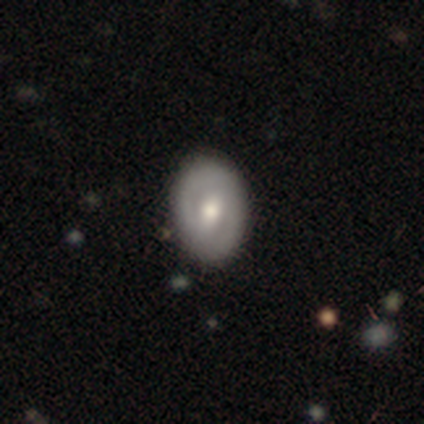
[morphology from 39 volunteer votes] This appears to be a featured or disk galaxy (69%) with a weak bar (44%), no spiral arms (63%) and a moderate central bulge (63%). Merging: none (54%).